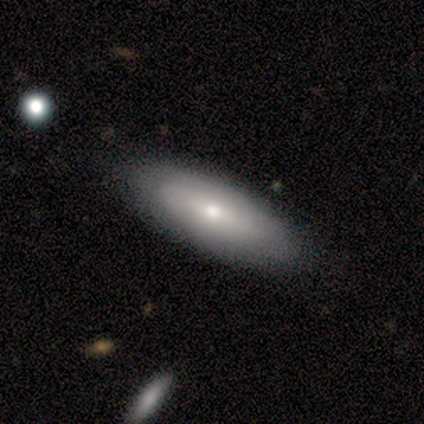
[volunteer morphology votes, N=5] A smooth galaxy with no disk features (60%) that is in between round and cigar-shaped (67%).

Vote fractions:
- Smooth or featured? smooth: 60% / featured or disk: 40% / star or artifact: 0%
- How rounded? in between: 67% / cigar-shaped: 33% / round: 0%
- Merging? none: 100% / minor disturbance: 0% / major disturbance: 0% / merger: 0%